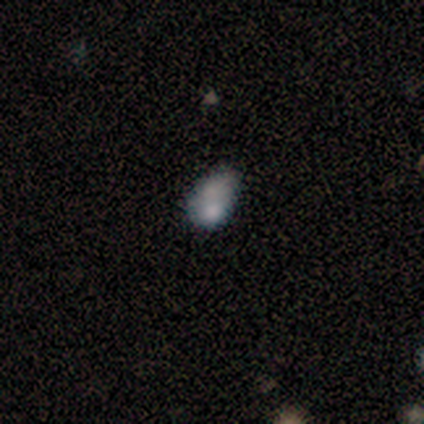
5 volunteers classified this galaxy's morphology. Smooth or featured?
  - featured or disk: 60% *
  - smooth: 20%
  - star or artifact: 20%
Edge-on disk?
  - no: 100% *
  - yes: 0%
Bar?
  - no: 100% *
  - strong: 0%
  - weak: 0%
Spiral arms?
  - no: 100% *
  - yes: 0%
Bulge size?
  - small: 67% *
  - none: 33%
  - dominant: 0%
  - large: 0%
  - moderate: 0%
Merging?
  - major disturbance: 50% *
  - minor disturbance: 25%
  - merger: 25%
  - none: 0%